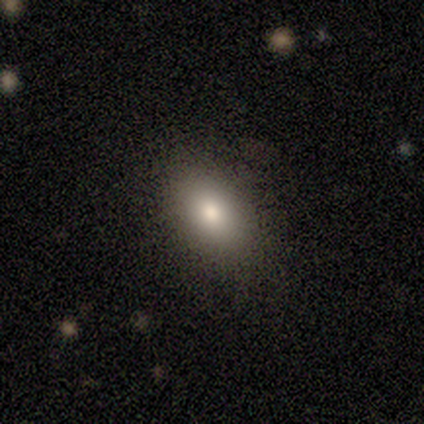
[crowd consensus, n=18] Smooth or featured? smooth (78%)
How rounded? in between (100%)
Merging? none (100%)